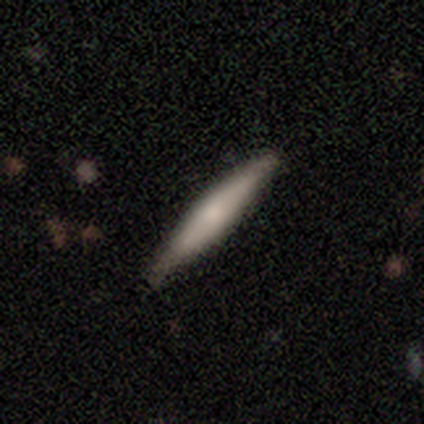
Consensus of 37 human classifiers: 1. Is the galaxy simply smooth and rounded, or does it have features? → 49% smooth (tied), 49% featured or disk (tied), 3% star or artifact.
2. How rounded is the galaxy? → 94% cigar-shaped, 6% in between, 0% round.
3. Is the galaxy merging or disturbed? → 92% none, 8% minor disturbance, 0% major disturbance, 0% merger.